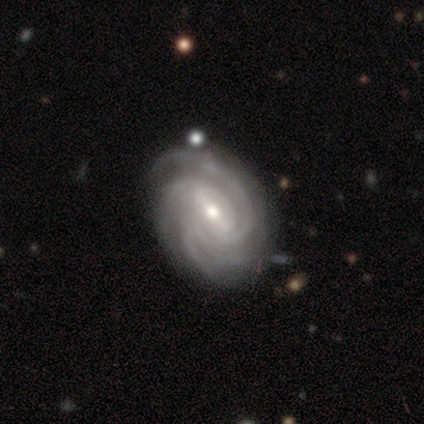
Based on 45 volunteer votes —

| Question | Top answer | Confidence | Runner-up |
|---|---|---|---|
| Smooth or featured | featured or disk | 89% | smooth (11%) |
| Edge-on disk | no | 100% | — |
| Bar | strong | 52% | weak (38%) |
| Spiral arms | yes | 100% | — |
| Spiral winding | tight | 70% | medium (30%) |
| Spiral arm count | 4 | 42% | 3 (35%) |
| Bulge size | moderate | 75% | small (25%) |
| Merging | none | 69% | minor disturbance (22%) |